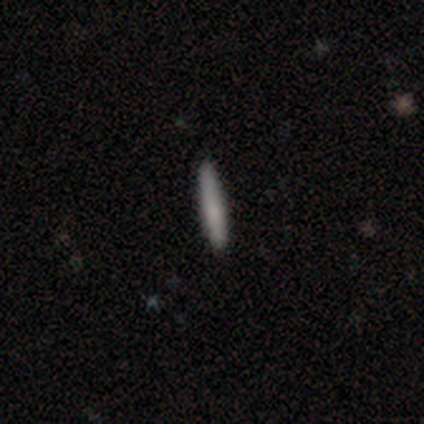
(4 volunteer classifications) Volunteers were most divided on "smooth or featured": smooth: 75%, featured or disk: 25%, star or artifact: 0%. More confident: how rounded — cigar-shaped (100%); merging — none (100%).